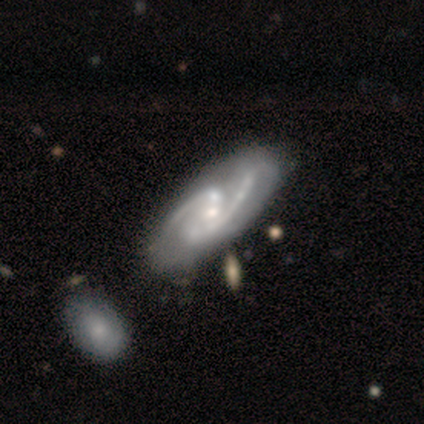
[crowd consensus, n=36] Q: Smooth or featured?
A: featured or disk (89%); runner-up: smooth (11%)
Q: Edge-on disk?
A: no (91%); runner-up: yes (9%)
Q: Bar?
A: no (48%); runner-up: weak (34%)
Q: Spiral arms?
A: yes (100%)
Q: Spiral winding?
A: medium (66%); runner-up: tight (17%)
Q: Spiral arm count?
A: 2 (86%); runner-up: 3 (10%)
Q: Bulge size?
A: small (62%); runner-up: moderate (34%)
Q: Merging?
A: none (50%); runner-up: minor disturbance (22%)